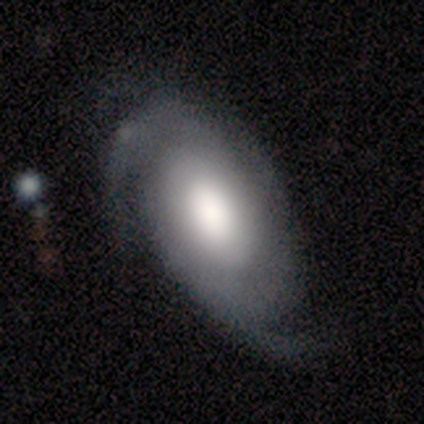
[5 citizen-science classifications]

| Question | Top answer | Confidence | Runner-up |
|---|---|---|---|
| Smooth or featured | featured or disk | 60% | smooth (20%) |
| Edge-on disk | no | 67% | yes (33%) |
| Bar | weak | 50% | tied: no (50%) |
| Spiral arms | yes | 100% | — |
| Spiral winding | tight | 50% | tied: loose (50%) |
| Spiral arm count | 2 | 100% | — |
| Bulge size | moderate | 100% | — |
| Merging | none | 100% | — |